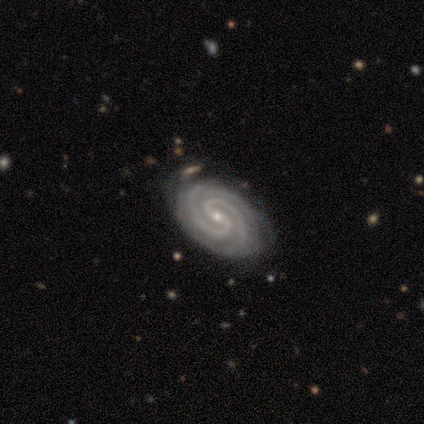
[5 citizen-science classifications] Volunteers were most divided on "bar" (2-way tie): weak: 50%, no: 50%, strong: 0%. More confident: edge-on disk — no (100%); spiral arms — yes (100%); spiral winding — tight (100%); bulge size — small (100%); smooth or featured — featured or disk (80%); merging — none (75%); spiral arm count — 2 (50%).